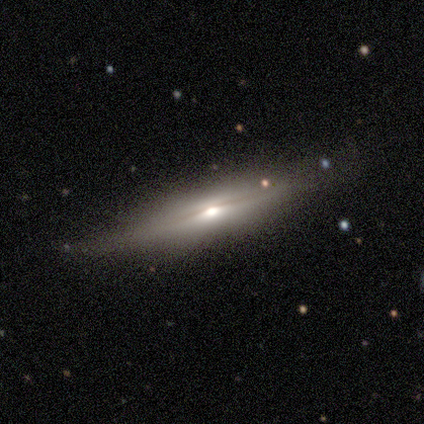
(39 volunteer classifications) This is possibly a featured or disk galaxy (54%). It is clearly viewed edge-on (90%). Edge-on bulge: clearly rounded (84%). Merging: likely none (76%).